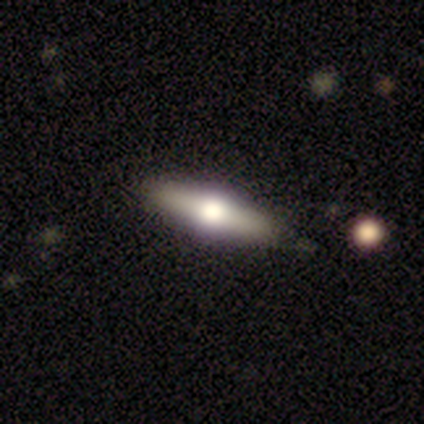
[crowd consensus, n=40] This appears to be a featured or disk galaxy (62%) viewed edge-on (96%) with a rounded central bulge (100%). Merging: none (78%).